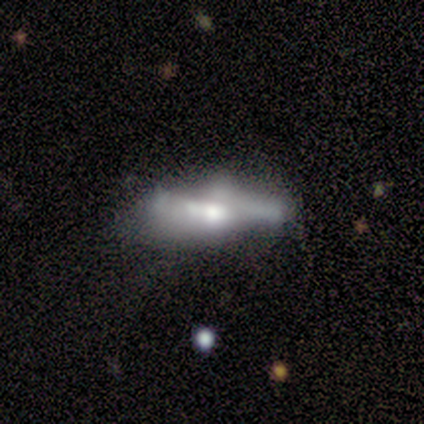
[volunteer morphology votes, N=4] This appears to be a featured or disk galaxy (100%) with no bar (75%), no spiral arms (75%) and a large central bulge (75%). Merging: major disturbance (50%).